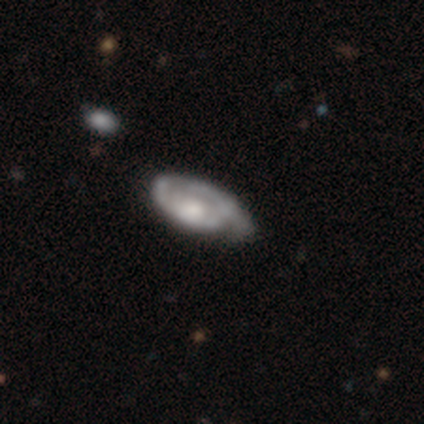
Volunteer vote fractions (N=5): smooth-or-featured: featured or disk: 80% | star or artifact: 20% | smooth: 0%
  disk-edge-on: yes: 50% (tied) | no: 50% (tied)
    edge-on-bulge: rounded: 100% | boxy: 0% | none: 0%
  merging: none: 50% (tied) | minor disturbance: 50% (tied) | major disturbance: 0% | merger: 0%